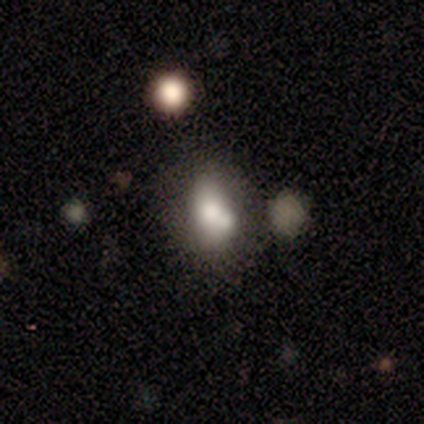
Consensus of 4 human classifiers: smooth_or_featured: smooth (p=0.75) [alt: featured or disk p=0.25]
how_rounded: round (p=0.67) [alt: in between p=0.33]
merging: minor disturbance (p=0.50) [alt: none p=0.25]